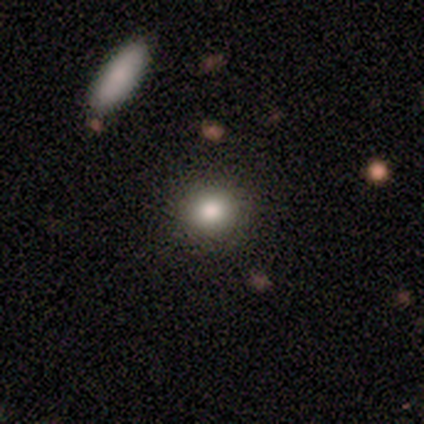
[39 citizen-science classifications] Q: Smooth or featured?
A: smooth (82%); runner-up: star or artifact (13%)
Q: How rounded?
A: round (84%); runner-up: in between (12%)
Q: Merging?
A: none (97%); runner-up: minor disturbance (3%)